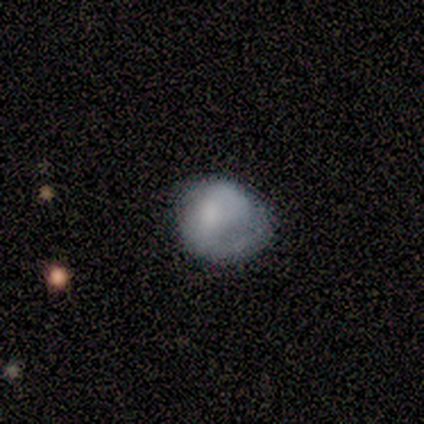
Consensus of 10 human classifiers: smooth 60%, featured or disk 40%, star or artifact 0%. Down the decision tree: how rounded — round (100%); merging — none (50%).